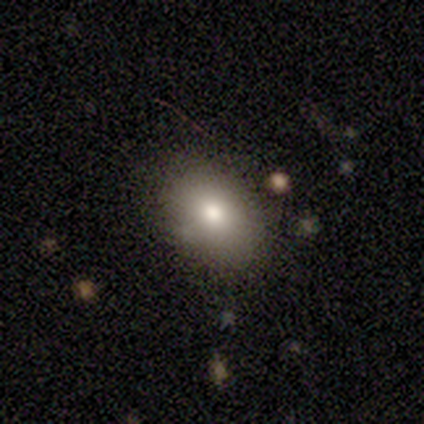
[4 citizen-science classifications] Smooth or featured? 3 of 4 (75%) said smooth. How rounded? 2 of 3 (67%) said in between. Merging? 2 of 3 (67%) said none.